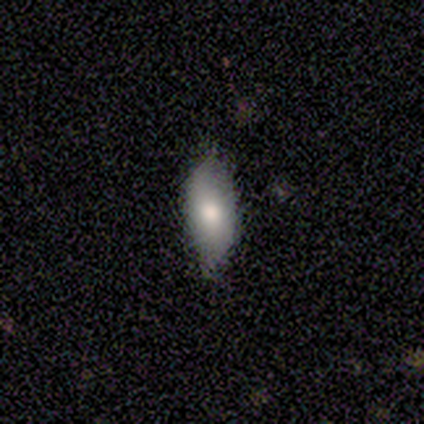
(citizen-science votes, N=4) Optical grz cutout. It shows a smooth galaxy with no disk features (50%) that is in between round and cigar-shaped (100%). Merging: none (67%).